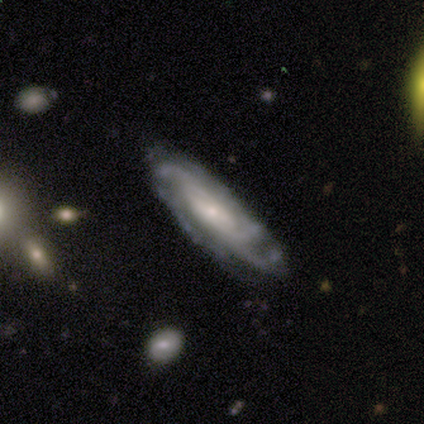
Q: Smooth or featured?
A: featured or disk (100%)
Q: Edge-on disk?
A: no (100%)
Q: Bar?
A: weak (67%); runner-up: no (33%)
Q: Spiral arms?
A: yes (100%)
Q: Spiral winding?
A: tight (67%); runner-up: medium (33%)
Q: Spiral arm count?
A: 2 (33%); tied with: 4 (33%); can't tell (33%)
Q: Bulge size?
A: small (67%); runner-up: moderate (33%)
Q: Merging?
A: none (67%); runner-up: minor disturbance (33%)